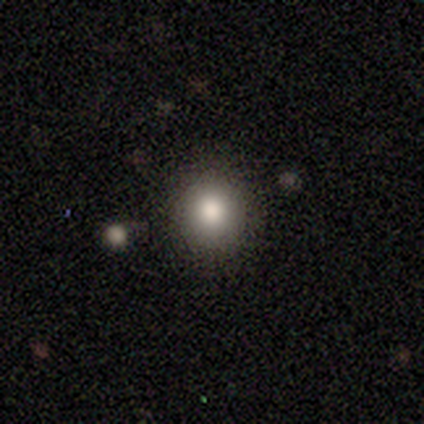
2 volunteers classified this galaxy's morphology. smooth 100%, featured or disk 0%, star or artifact 0%. Down the decision tree: how rounded — round (100%); merging — none (100%).